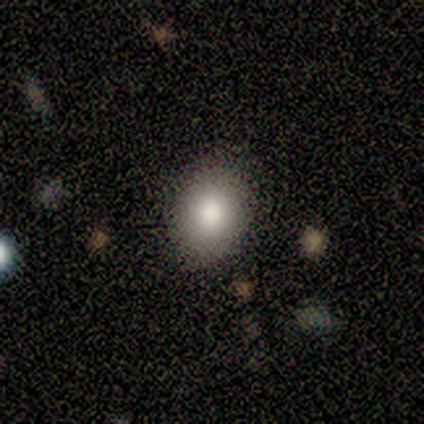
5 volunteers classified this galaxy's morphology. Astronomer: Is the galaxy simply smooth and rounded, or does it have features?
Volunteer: smooth — 80%.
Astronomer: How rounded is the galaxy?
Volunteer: round — 50%, tied with in between at 50%.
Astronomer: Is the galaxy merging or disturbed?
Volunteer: none — 100%.